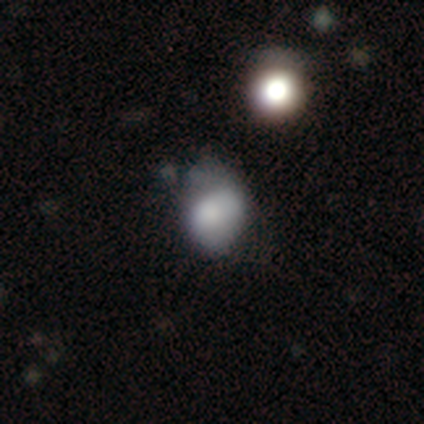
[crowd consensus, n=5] This appears to be a smooth galaxy with no disk features (80%) that is in between round and cigar-shaped (75%). Merging: none (40%, tied with minor disturbance).